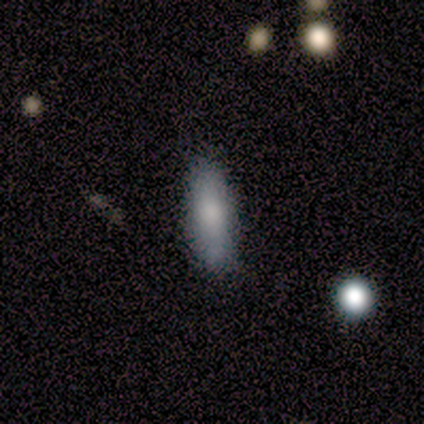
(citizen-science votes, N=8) Smooth or featured? 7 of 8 (88%) said smooth. How rounded? 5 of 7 (71%) said cigar-shaped. Merging? 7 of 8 (88%) said none.